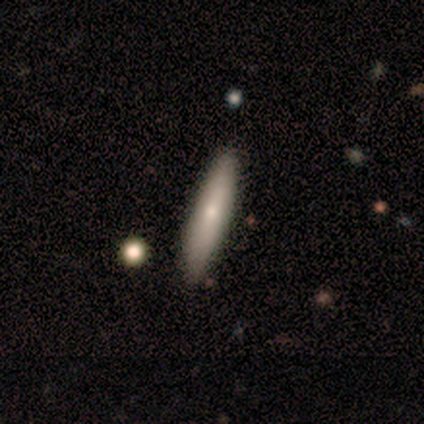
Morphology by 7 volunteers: Smooth or featured: smooth — 71% (featured or disk — 29%)
How rounded: cigar-shaped — 100%
Merging: none — 71% (minor disturbance — 29%)